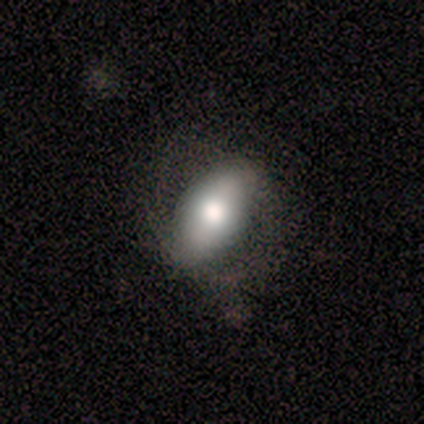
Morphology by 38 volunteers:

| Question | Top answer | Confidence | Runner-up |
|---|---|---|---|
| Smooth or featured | smooth | 66% | featured or disk (32%) |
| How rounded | in between | 96% | round (4%) |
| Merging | none | 62% | minor disturbance (22%) |